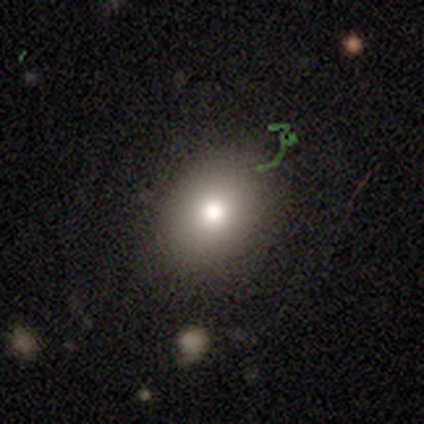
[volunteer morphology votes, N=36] Smooth or featured? 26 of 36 (72%) said smooth. How rounded? 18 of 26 (69%) said in between. Merging? 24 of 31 (77%) said none.